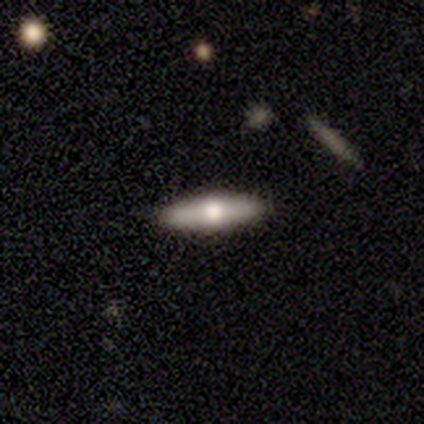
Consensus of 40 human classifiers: Morphology: type=smooth (45%, tied with featured or disk); roundness=cigar-shaped (72%); merging=none (92%).